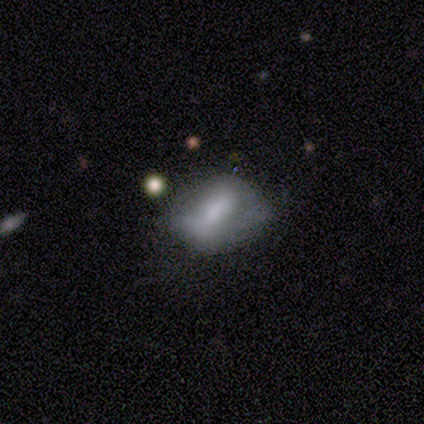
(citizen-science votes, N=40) This appears to be a smooth galaxy with no disk features (55%) that is in between round and cigar-shaped (86%). Merging: none (45%).